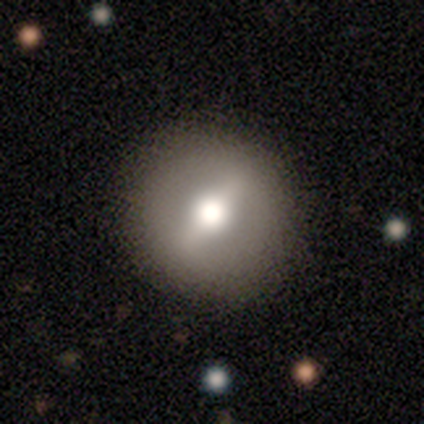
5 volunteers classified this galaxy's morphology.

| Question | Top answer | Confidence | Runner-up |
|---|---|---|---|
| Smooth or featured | featured or disk | 60% | smooth (40%) |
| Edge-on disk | no | 100% | — |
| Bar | strong | 67% | no (33%) |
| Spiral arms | no | 100% | — |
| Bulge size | moderate | 100% | — |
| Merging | none | 80% | major disturbance (20%) |